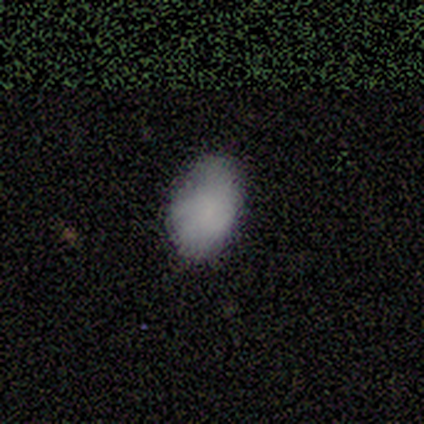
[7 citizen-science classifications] Morphology: type=smooth (57%); roundness=in between (100%); merging=none (71%).